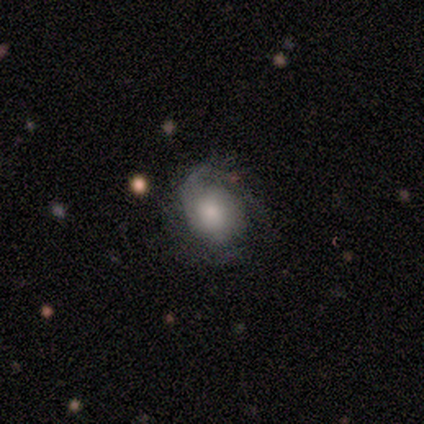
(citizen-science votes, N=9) Smooth or featured? featured or disk (78%)
Edge-on disk? no (100%)
Bar? no (100%)
Spiral arms? yes (100%)
Spiral winding? tight (57%)
Spiral arm count? can't tell (57%)
Bulge size? moderate (57%)
Merging? none (67%)